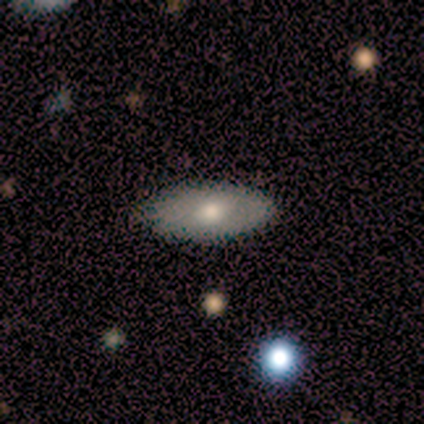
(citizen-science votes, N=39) smooth 64%, featured or disk 33%, star or artifact 3%. Down the decision tree: how rounded — in between (84%); merging — none (84%).